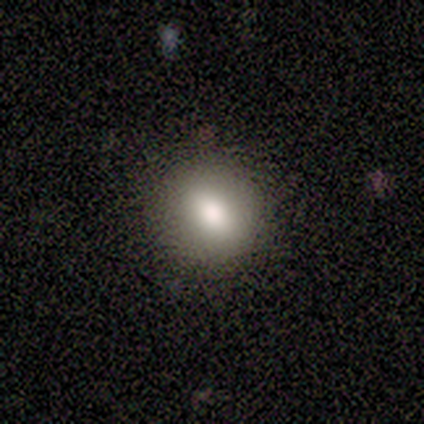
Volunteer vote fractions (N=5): Smooth or featured: star or artifact — 60% (smooth — 20%)